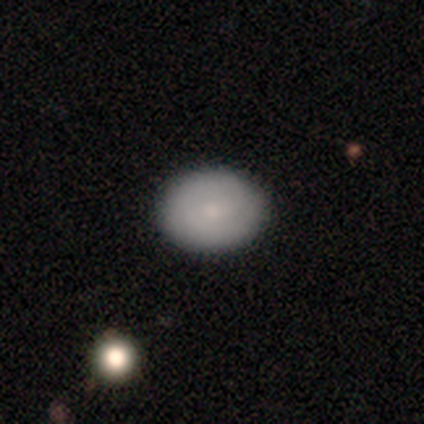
Smooth or featured? 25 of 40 (62%) said smooth. How rounded? 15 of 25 (60%) said round. Merging? 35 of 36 (97%) said none.